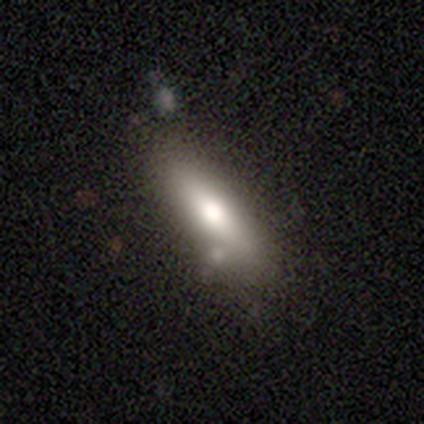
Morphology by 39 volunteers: Smooth or featured: smooth — 64% (featured or disk — 21%)
How rounded: cigar-shaped — 56% (in between — 44%)
Merging: none — 70% (merger — 18%)